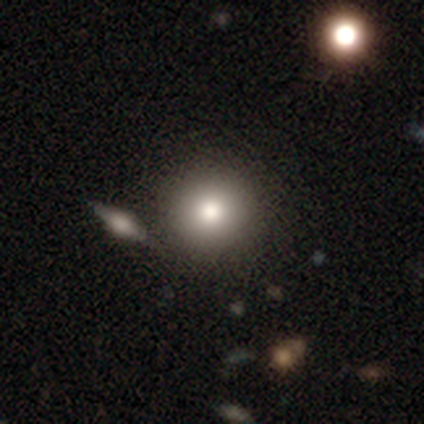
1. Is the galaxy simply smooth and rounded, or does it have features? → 75% smooth, 25% star or artifact, 0% featured or disk.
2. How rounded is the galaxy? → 100% round, 0% in between, 0% cigar-shaped.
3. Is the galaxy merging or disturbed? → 100% none, 0% minor disturbance, 0% major disturbance, 0% merger.